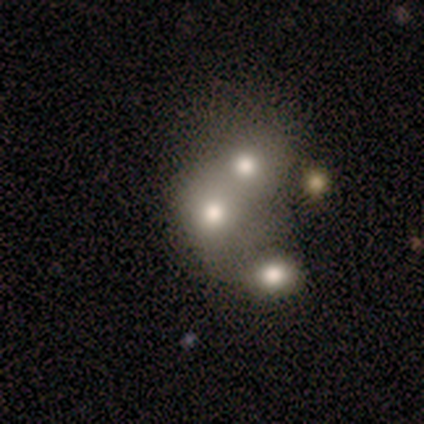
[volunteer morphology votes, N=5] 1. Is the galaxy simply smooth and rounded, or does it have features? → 60% smooth, 20% featured or disk, 20% star or artifact.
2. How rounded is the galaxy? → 100% round, 0% in between, 0% cigar-shaped.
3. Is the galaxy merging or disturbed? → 100% merger, 0% none, 0% minor disturbance, 0% major disturbance.